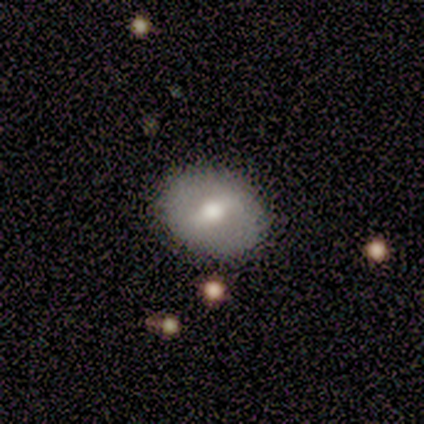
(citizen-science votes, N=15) Morphology: type=smooth (53%); roundness=in between (75%); merging=none (80%).